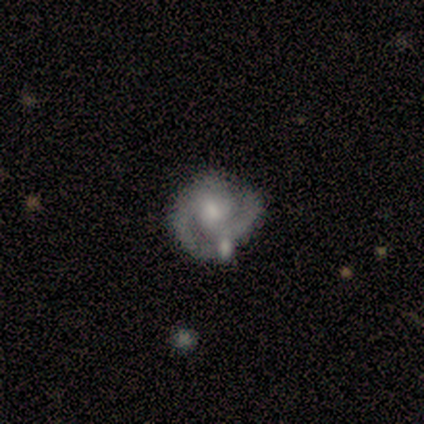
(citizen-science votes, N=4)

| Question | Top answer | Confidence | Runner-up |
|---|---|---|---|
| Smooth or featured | featured or disk | 100% | — |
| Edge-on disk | no | 100% | — |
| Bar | no | 100% | — |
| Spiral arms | yes | 100% | — |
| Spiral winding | tight | 50% | tied: medium (50%) |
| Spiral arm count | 2 | 75% | can't tell (25%) |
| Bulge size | moderate | 75% | small (25%) |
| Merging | none | 100% | — |